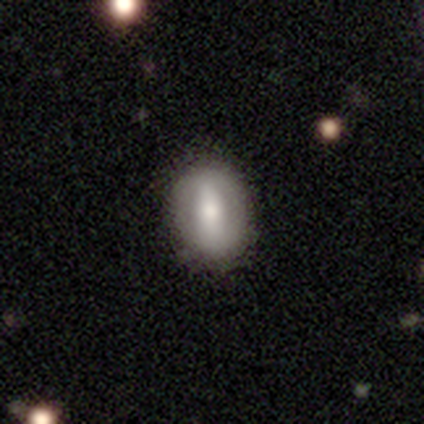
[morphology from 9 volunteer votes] Volunteers were most divided on "smooth or featured": smooth: 44%, featured or disk: 33%, star or artifact: 22%. More confident: how rounded — in between (75%); merging — none (71%).